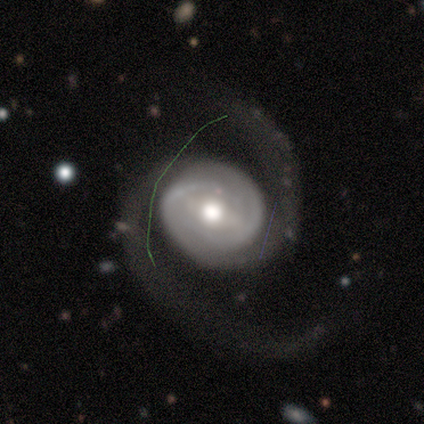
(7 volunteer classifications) smooth_or_featured: featured or disk (p=1.00)
disk_edge_on: no (p=1.00)
bar: weak (p=0.43) [alt: strong p=0.29]
has_spiral_arms: yes (p=1.00)
spiral_winding: medium (p=0.43) [alt: tight p=0.29]
spiral_arm_count: 2 (p=0.71) [alt: 1 p=0.14]
bulge_size: moderate (p=1.00)
merging: none (p=0.43) [alt: minor disturbance p=0.29]